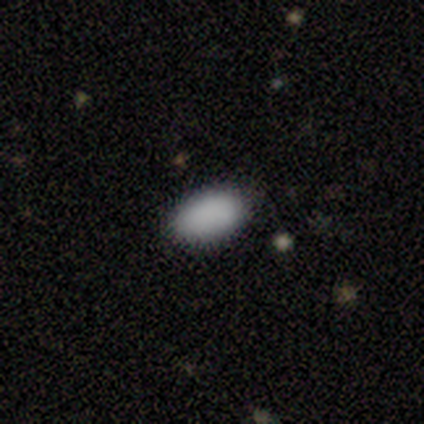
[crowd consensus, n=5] Smooth or featured? 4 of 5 (80%) said smooth. How rounded? 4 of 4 (100%) said in between. Merging? 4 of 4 (100%) said none.